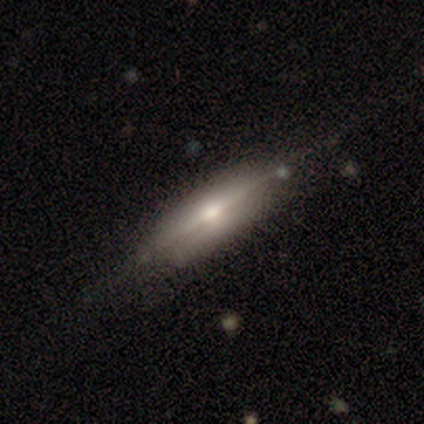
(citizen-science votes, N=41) Overall: featured or disk (80%). Edge-on disk: yes (97%). Edge-on bulge: rounded (59%; boxy 34%). Merging: none (82%).